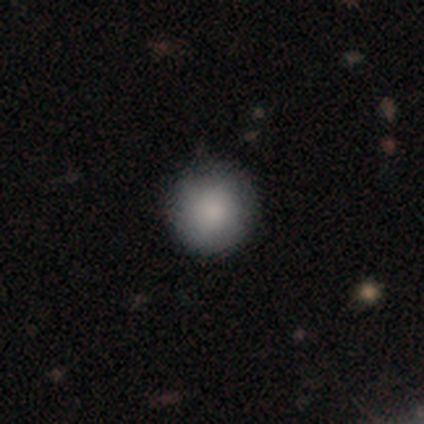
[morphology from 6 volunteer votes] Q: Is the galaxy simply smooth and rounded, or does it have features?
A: smooth — 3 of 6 (50%).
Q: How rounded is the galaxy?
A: round — 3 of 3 (100%).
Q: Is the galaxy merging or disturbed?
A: none — 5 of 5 (100%).